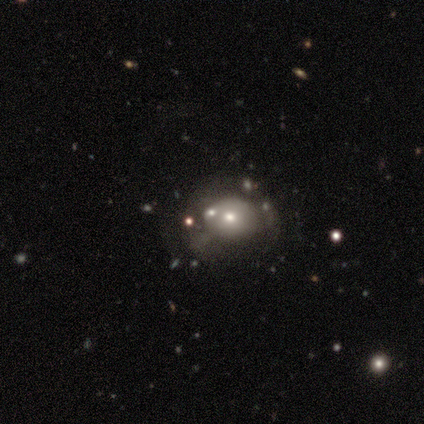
Q: Smooth or featured?
A: smooth (62%); runner-up: featured or disk (26%)
Q: How rounded?
A: round (62%); runner-up: in between (38%)
Q: Merging?
A: none (41%); runner-up: minor disturbance (26%)